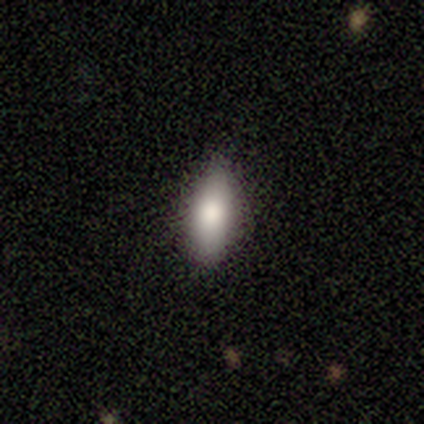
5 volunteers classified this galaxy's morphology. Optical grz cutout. It shows a smooth galaxy with no disk features (100%) that is in between round and cigar-shaped (80%). Merging: none (60%).